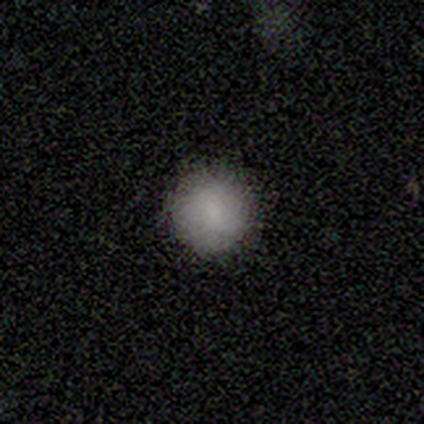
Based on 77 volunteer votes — Smooth or featured: smooth — 87% (featured or disk — 8%)
How rounded: round — 97% (in between — 3%)
Merging: none — 52% (minor disturbance — 1%)